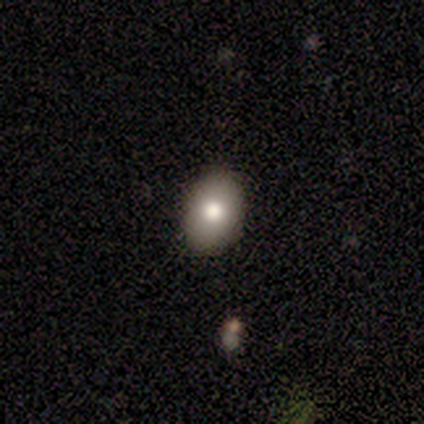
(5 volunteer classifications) smooth-or-featured: smooth: 100% | featured or disk: 0% | star or artifact: 0%
  how-rounded: in between: 60% | round: 40% | cigar-shaped: 0%
  merging: none: 100% | minor disturbance: 0% | major disturbance: 0% | merger: 0%